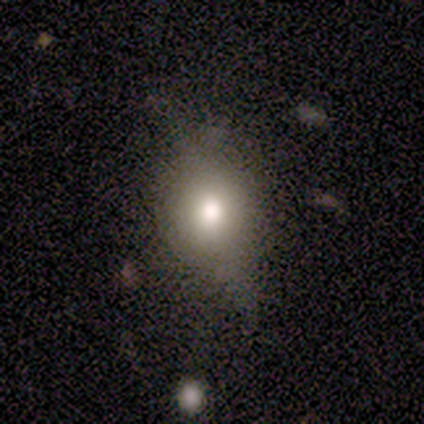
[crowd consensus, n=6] Smooth or featured? smooth (83%)
How rounded? in between (60%)
Merging? none (67%)